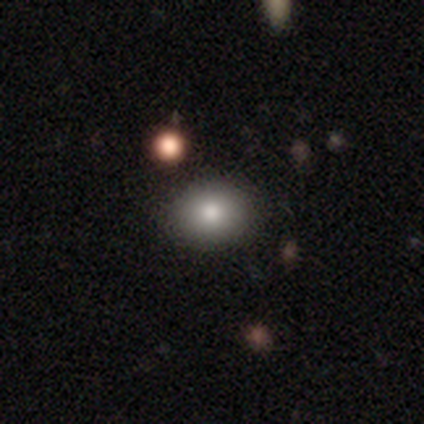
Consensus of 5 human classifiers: A smooth galaxy with no disk features (80%) that is round (75%).

Vote fractions:
- Smooth or featured? smooth: 80% / star or artifact: 20% / featured or disk: 0%
- How rounded? round: 75% / in between: 25% / cigar-shaped: 0%
- Merging? none: 100% / minor disturbance: 0% / major disturbance: 0% / merger: 0%